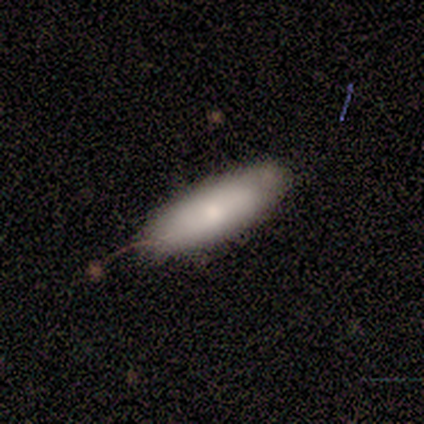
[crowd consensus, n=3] Overall: smooth (67%; featured or disk 33%). How rounded: in between (50%, tied with cigar-shaped). Merging: none (100%).